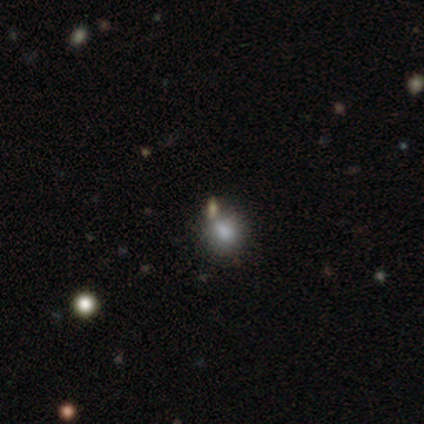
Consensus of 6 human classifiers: Smooth or featured: smooth — 100%
How rounded: round — 50% (tied with in between — 50%)
Merging: none — 50% (minor disturbance — 33%)